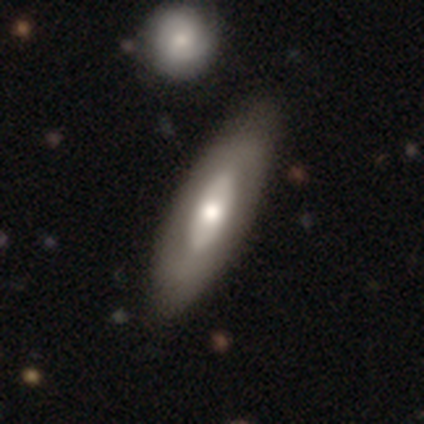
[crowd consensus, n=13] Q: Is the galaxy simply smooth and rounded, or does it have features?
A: featured or disk — 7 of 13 (54%).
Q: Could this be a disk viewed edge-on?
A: no — 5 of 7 (71%).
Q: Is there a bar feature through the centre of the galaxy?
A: no — 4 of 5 (80%).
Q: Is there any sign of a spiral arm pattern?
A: no — 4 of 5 (80%).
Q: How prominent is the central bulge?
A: moderate — 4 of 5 (80%).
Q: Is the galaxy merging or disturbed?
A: none — 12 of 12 (100%).